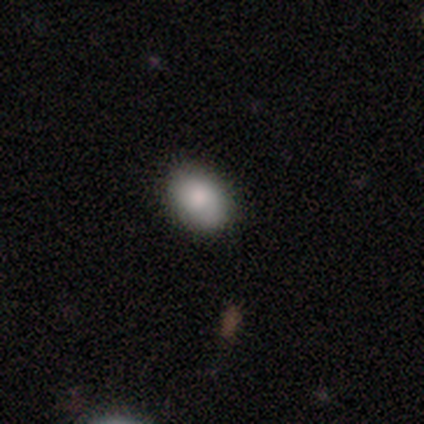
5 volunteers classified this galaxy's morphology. A smooth galaxy with no disk features (100%) that is in between round and cigar-shaped (80%).

Vote fractions:
- Smooth or featured? smooth: 100% / featured or disk: 0% / star or artifact: 0%
- How rounded? in between: 80% / round: 20% / cigar-shaped: 0%
- Merging? none: 80% / minor disturbance: 20% / major disturbance: 0% / merger: 0%